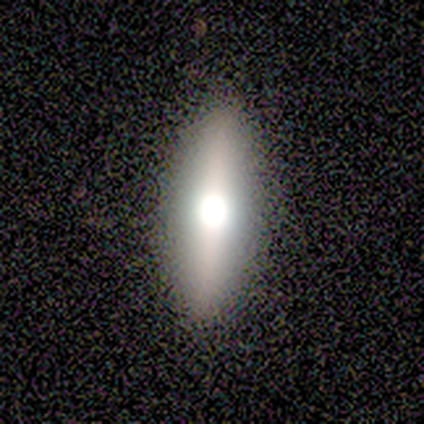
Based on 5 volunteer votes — Smooth or featured?
  - featured or disk: 60% *
  - smooth: 40%
  - star or artifact: 0%
Edge-on disk?
  - yes: 100% *
  - no: 0%
Edge-on bulge?
  - rounded: 100% *
  - boxy: 0%
  - none: 0%
Merging?
  - none: 80% *
  - minor disturbance: 20%
  - major disturbance: 0%
  - merger: 0%